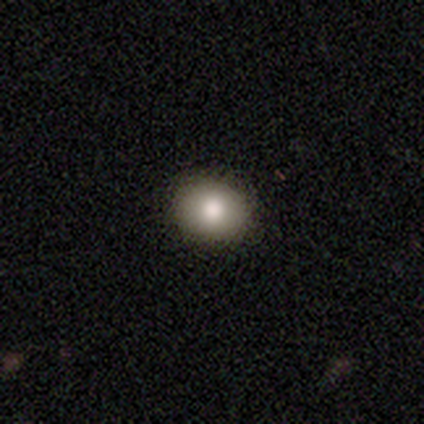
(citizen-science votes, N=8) Smooth or featured?
  - smooth: 75% *
  - featured or disk: 12%
  - star or artifact: 12%
How rounded?
  - in between: 67% *
  - round: 33%
  - cigar-shaped: 0%
Merging?
  - none: 86% *
  - minor disturbance: 14%
  - major disturbance: 0%
  - merger: 0%